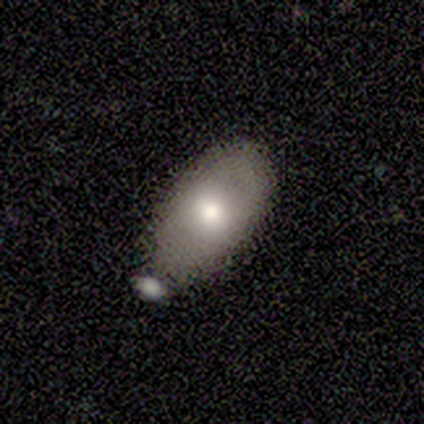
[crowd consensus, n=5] Smooth or featured?
  - smooth: 100% *
  - featured or disk: 0%
  - star or artifact: 0%
How rounded?
  - in between: 100% *
  - round: 0%
  - cigar-shaped: 0%
Merging?
  - minor disturbance: 60% *
  - none: 20%
  - major disturbance: 20%
  - merger: 0%